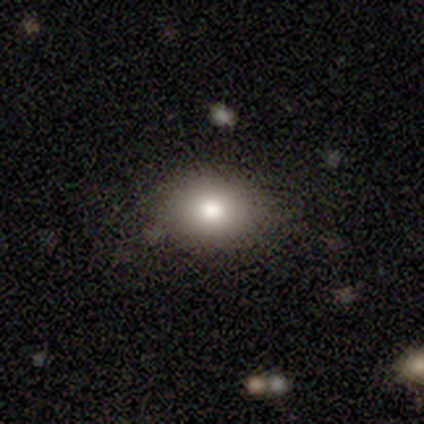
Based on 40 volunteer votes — A smooth galaxy with no disk features (75%) that is in between round and cigar-shaped (60%).

Vote fractions:
- Smooth or featured? smooth: 75% / star or artifact: 15% / featured or disk: 10%
- How rounded? in between: 60% / round: 40% / cigar-shaped: 0%
- Merging? none: 82% / minor disturbance: 12% / major disturbance: 6% / merger: 0%